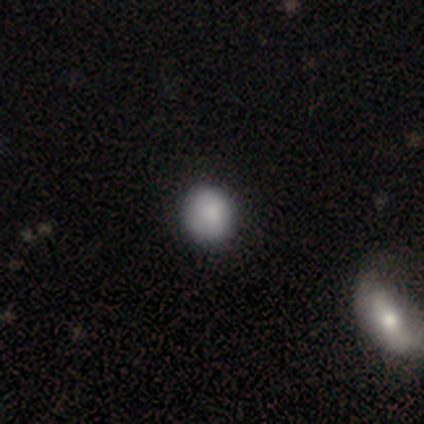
smooth 100%, featured or disk 0%, star or artifact 0%. Down the decision tree: how rounded — round (100%); merging — none (80%).